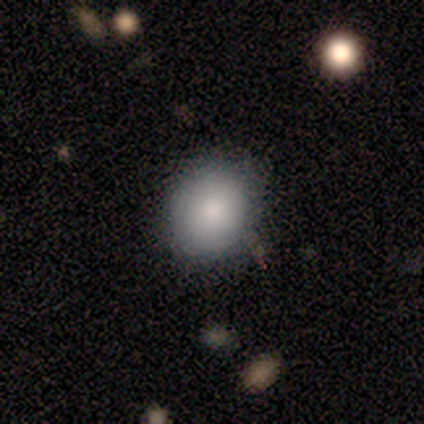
Overall: smooth (80%). How rounded: round (75%). Merging: none (100%).